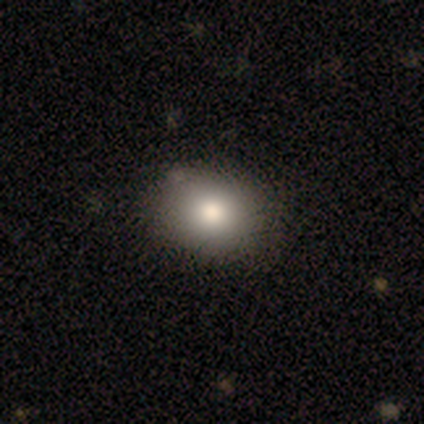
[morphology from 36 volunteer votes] This is likely a smooth galaxy (75%). How rounded: possibly in between (56%). Merging: clearly none (91%).